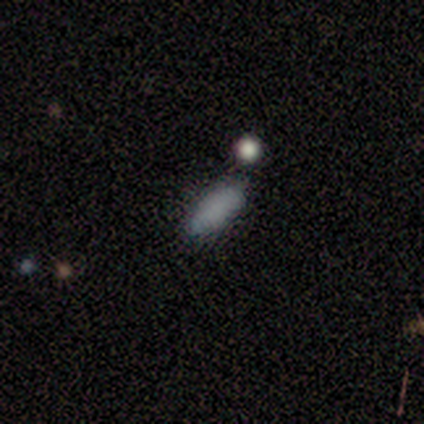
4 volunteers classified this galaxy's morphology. smooth 100%, featured or disk 0%, star or artifact 0%. Down the decision tree: how rounded — in between (75%); merging — none (100%).